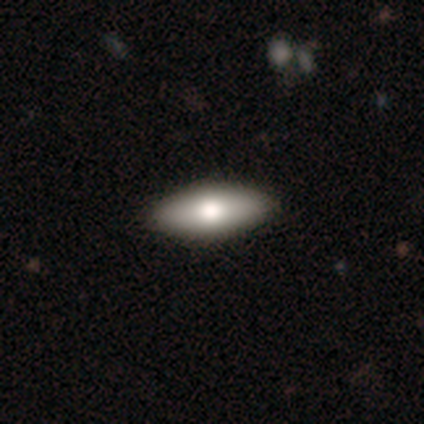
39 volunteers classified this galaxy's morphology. A smooth galaxy with no disk features (77%) that is in between round and cigar-shaped (77%). Merging: none (92%).